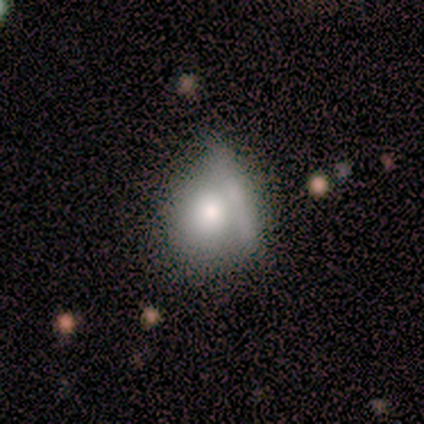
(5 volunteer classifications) Smooth or featured: smooth — 80% (star or artifact — 20%)
How rounded: round — 75% (in between — 25%)
Merging: merger — 50% (none — 25%)